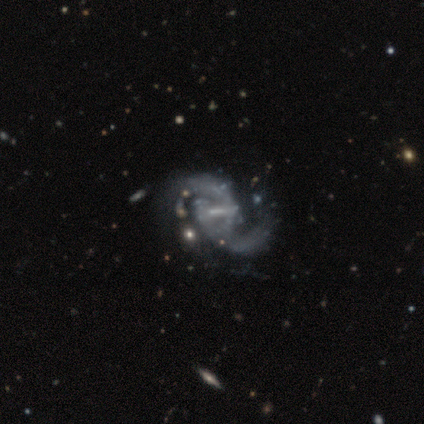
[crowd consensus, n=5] This appears to be a featured or disk galaxy (100%) with a strong bar (60%), 2 (100%) loose (100%) spiral arms (100%) and no central bulge (60%). Merging: none (40%, tied with major disturbance).